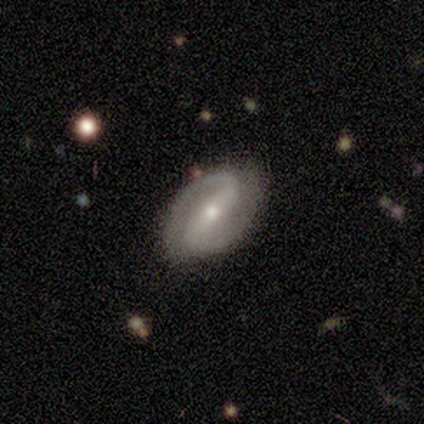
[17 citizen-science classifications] smooth-or-featured: featured or disk: 88% | smooth: 6% | star or artifact: 6%
  disk-edge-on: no: 100% | yes: 0%
    bar: strong: 53% | weak: 33% | no: 13%
    has-spiral-arms: yes: 93% | no: 7%
      spiral-winding: tight: 43% | medium: 29% | loose: 29%
      spiral-arm-count: 2: 93% | can't tell: 7% | 1: 0% | 3: 0% | 4: 0% | more than 4: 0%
    bulge-size: small: 53% | moderate: 47% | dominant: 0% | large: 0% | none: 0%
  merging: none: 75% | minor disturbance: 25% | major disturbance: 0% | merger: 0%